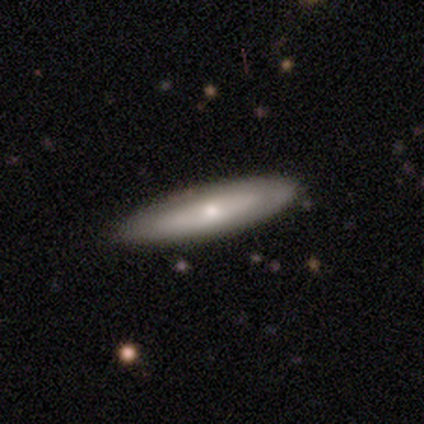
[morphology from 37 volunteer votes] A smooth galaxy with no disk features (51%) that is cigar-shaped (63%).

Vote fractions:
- Smooth or featured? smooth: 51% / featured or disk: 46% / star or artifact: 3%
- How rounded? cigar-shaped: 63% / in between: 37% / round: 0%
- Merging? none: 83% / minor disturbance: 14% / major disturbance: 3% / merger: 0%